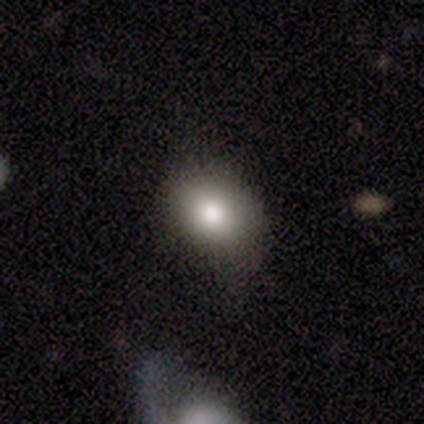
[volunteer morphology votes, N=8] smooth 75%, featured or disk 25%, star or artifact 0%. Down the decision tree: how rounded — round (50%, tied with in between); merging — none (62%).